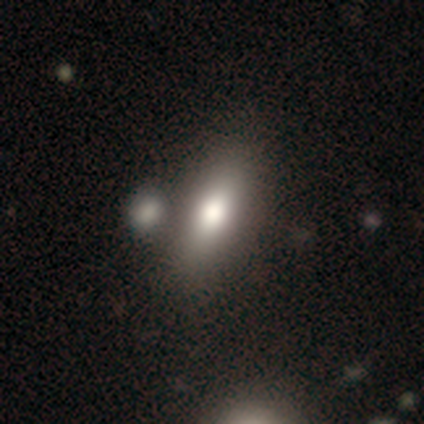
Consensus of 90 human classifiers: Morphology: type=smooth (78%); roundness=in between (64%); merging=none (64%).